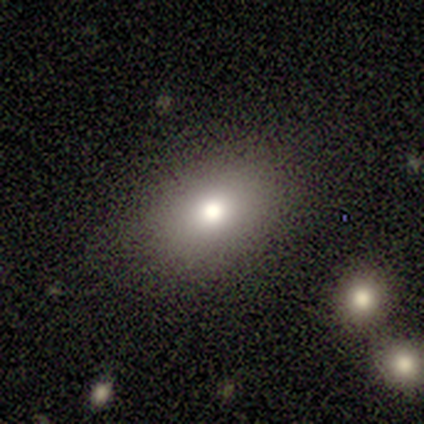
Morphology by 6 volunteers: smooth-or-featured: smooth: 50% | star or artifact: 33% | featured or disk: 17%
  how-rounded: in between: 67% | round: 33% | cigar-shaped: 0%
  merging: none: 100% | minor disturbance: 0% | major disturbance: 0% | merger: 0%